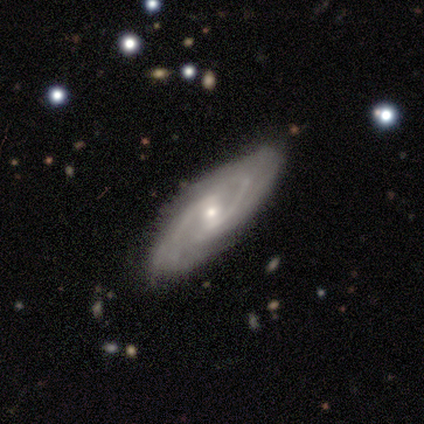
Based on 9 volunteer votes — Volunteers were most divided on "spiral winding" (2-way tie): tight: 38%, medium: 38%, loose: 25%; "spiral arm count" (2-way tie): 2: 38%, can't tell: 38%, 3: 12%, 4: 12%, 1: 0%, more than 4: 0%. More confident: smooth or featured — featured or disk (100%); spiral arms — yes (100%); merging — none (100%); edge-on disk — no (89%); bulge size — moderate (62%); bar — strong (62%).